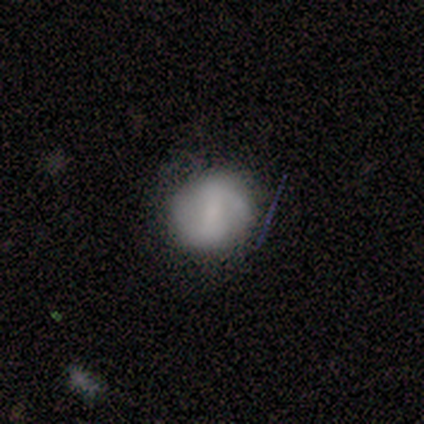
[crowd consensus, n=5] Smooth or featured?
  - featured or disk: 60% *
  - smooth: 40%
  - star or artifact: 0%
Edge-on disk?
  - no: 100% *
  - yes: 0%
Bar?
  - strong: 67% *
  - weak: 33%
  - no: 0%
Spiral arms?
  - yes: 100% *
  - no: 0%
Spiral winding?
  - medium: 67% *
  - loose: 33%
  - tight: 0%
Spiral arm count?
  - 2: 100% *
  - 1: 0%
  - 3: 0%
  - 4: 0%
  - more than 4: 0%
  - can't tell: 0%
Bulge size?
  - none: 67% *
  - small: 33%
  - dominant: 0%
  - large: 0%
  - moderate: 0%
Merging?
  - none: 80% *
  - minor disturbance: 20%
  - major disturbance: 0%
  - merger: 0%